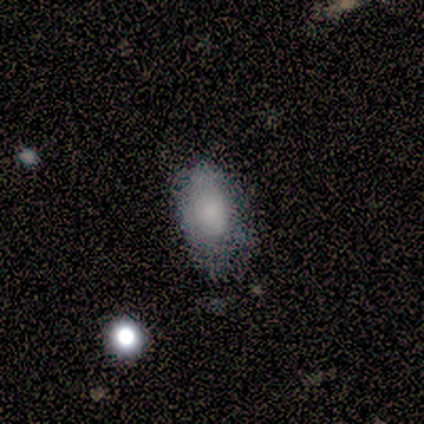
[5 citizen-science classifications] Smooth or featured? 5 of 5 (100%) said smooth. How rounded? 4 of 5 (80%) said in between. Merging? 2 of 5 (40%, tied with minor disturbance) said none.